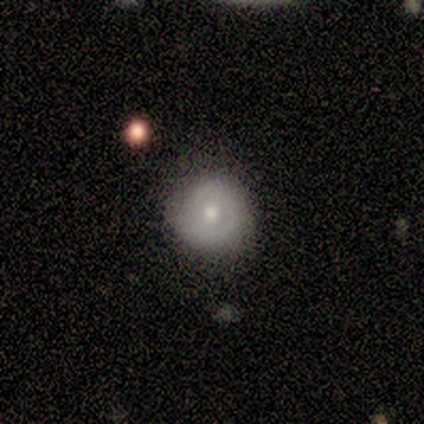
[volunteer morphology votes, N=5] A smooth galaxy with no disk features (80%) that is round (100%). Merging: none (100%).